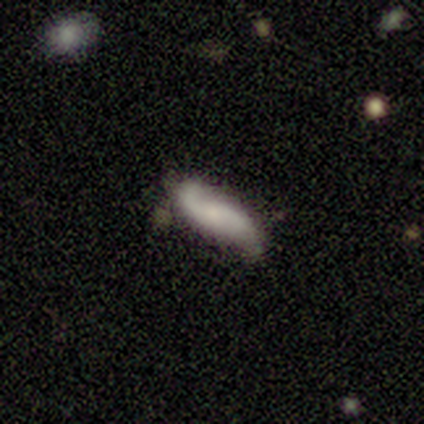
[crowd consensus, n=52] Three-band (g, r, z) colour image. It shows a featured or disk galaxy (60%) with no bar (73%), 2 (92%) loose (72%) spiral arms (96%) and a small central bulge (58%). Merging: none (54%).